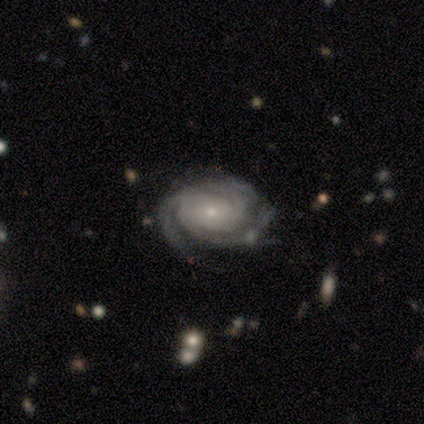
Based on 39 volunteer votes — Smooth or featured? 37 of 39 (95%) said featured or disk. Edge-on disk? 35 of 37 (95%) said no. Bar? 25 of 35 (71%) said no. Spiral arms? 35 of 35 (100%) said yes. Spiral winding? 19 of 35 (54%) said tight. Spiral arm count? 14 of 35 (40%) said 3. Bulge size? 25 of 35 (71%) said small. Merging? 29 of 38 (76%) said none.